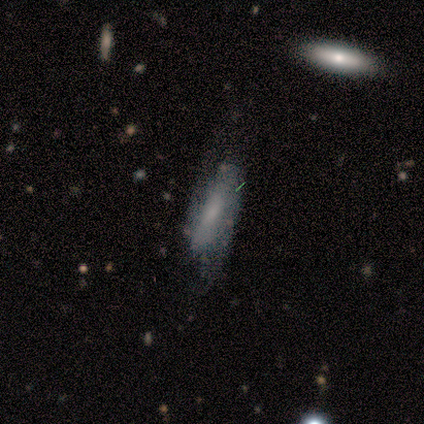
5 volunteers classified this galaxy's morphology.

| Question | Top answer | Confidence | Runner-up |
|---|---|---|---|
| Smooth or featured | smooth | 80% | featured or disk (20%) |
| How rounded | in between | 75% | cigar-shaped (25%) |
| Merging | none | 60% | minor disturbance (20%) |